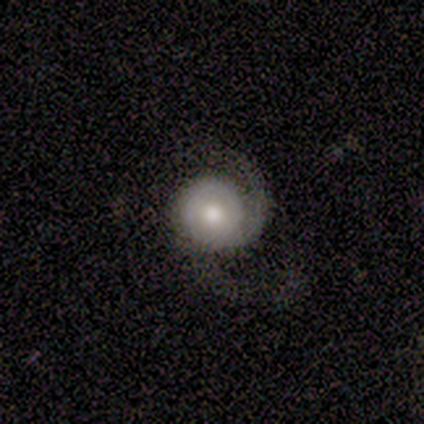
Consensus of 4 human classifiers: This appears to be a featured or disk galaxy (75%) with no bar (67%), 2 (67%) medium (100%) spiral arms (100%) and a moderate central bulge (67%). Merging: none (75%).